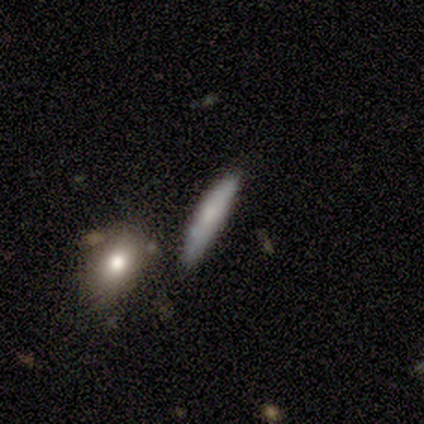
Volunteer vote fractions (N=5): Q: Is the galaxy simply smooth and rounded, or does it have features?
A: smooth — 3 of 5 (60%).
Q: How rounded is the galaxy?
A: cigar-shaped — 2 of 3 (67%).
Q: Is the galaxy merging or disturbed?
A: none — 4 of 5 (80%).